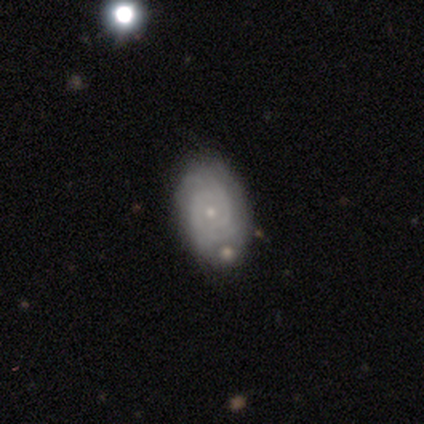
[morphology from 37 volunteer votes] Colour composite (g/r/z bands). It shows a featured or disk galaxy (73%) with no bar (89%), 2 (45%) tight (68%) spiral arms (81%) and a small central bulge (89%). Merging: none (61%).